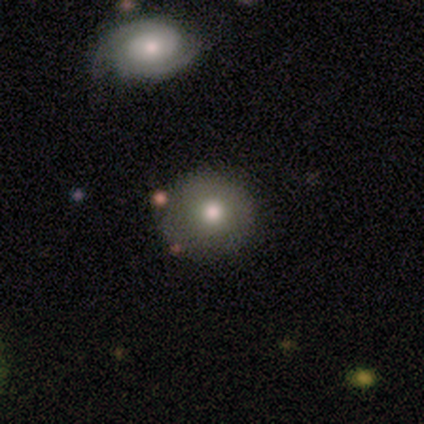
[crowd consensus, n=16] Q: Smooth or featured?
A: smooth (62%); runner-up: featured or disk (31%)
Q: How rounded?
A: round (100%)
Q: Merging?
A: none (87%); runner-up: minor disturbance (13%)